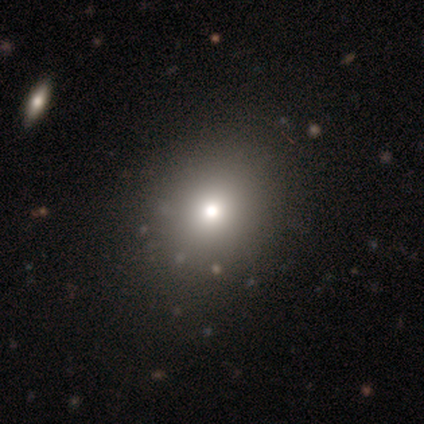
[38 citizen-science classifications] Q: Smooth or featured?
A: smooth (61%); runner-up: featured or disk (21%)
Q: How rounded?
A: round (74%); runner-up: in between (26%)
Q: Merging?
A: none (61%); runner-up: minor disturbance (3%)